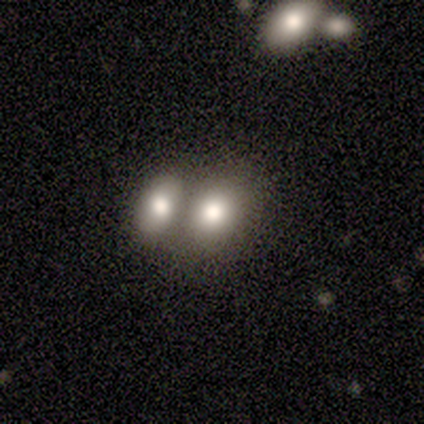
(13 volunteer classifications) Morphology: type=smooth (85%); roundness=in between (73%); merging=merger (64%).